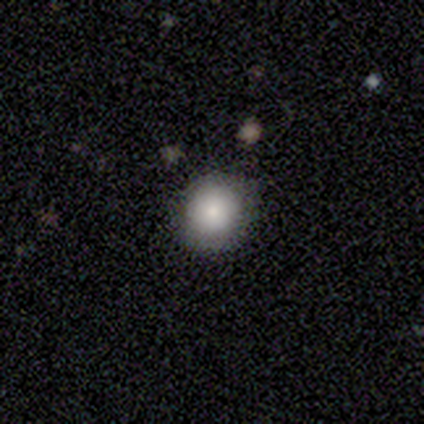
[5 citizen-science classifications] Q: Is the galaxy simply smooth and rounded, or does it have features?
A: smooth — 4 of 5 (80%).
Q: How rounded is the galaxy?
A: round — 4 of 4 (100%).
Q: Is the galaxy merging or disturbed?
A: none — 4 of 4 (100%).